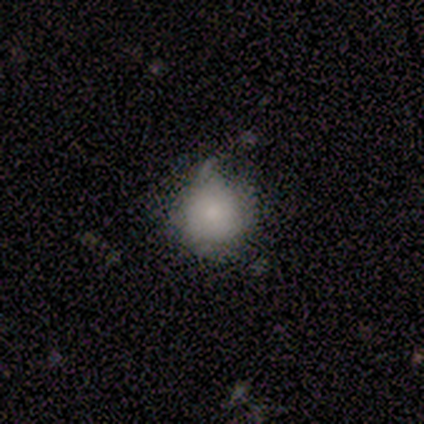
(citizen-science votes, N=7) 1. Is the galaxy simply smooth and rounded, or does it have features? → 71% smooth, 14% featured or disk, 14% star or artifact.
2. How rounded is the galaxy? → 100% round, 0% in between, 0% cigar-shaped.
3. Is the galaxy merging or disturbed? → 83% minor disturbance, 17% none, 0% major disturbance, 0% merger.